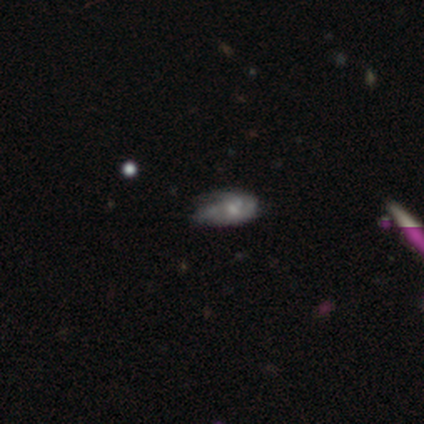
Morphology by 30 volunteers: Q: Smooth or featured?
A: featured or disk (53%); runner-up: smooth (23%)
Q: Edge-on disk?
A: no (100%)
Q: Bar?
A: no (81%); runner-up: strong (12%)
Q: Spiral arms?
A: yes (69%); runner-up: no (31%)
Q: Spiral winding?
A: tight (45%); runner-up: medium (36%)
Q: Spiral arm count?
A: 2 (36%); tied with: 3 (36%)
Q: Bulge size?
A: small (50%); runner-up: moderate (38%)
Q: Merging?
A: none (52%); runner-up: minor disturbance (26%)